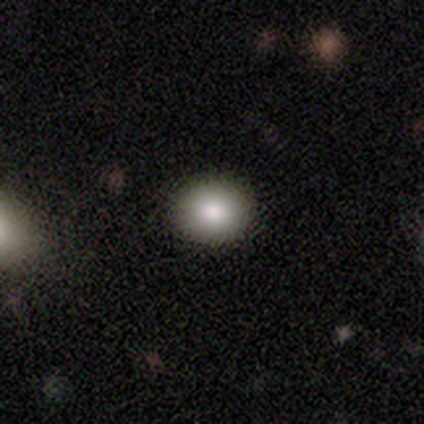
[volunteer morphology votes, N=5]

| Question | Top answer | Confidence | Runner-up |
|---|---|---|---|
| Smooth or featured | smooth | 100% | — |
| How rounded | round | 80% | in between (20%) |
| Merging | none | 100% | — |